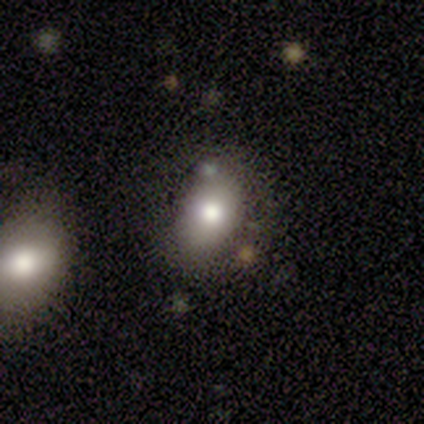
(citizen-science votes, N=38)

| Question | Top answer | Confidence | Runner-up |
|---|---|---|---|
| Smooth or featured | smooth | 55% | featured or disk (24%) |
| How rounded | in between | 62% | round (33%) |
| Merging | none | 70% | minor disturbance (20%) |